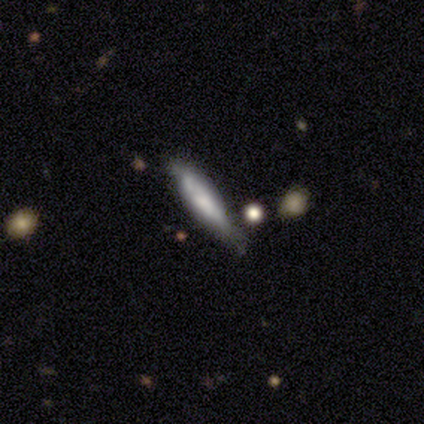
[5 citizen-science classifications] Overall: smooth (60%; featured or disk 40%). How rounded: cigar-shaped (100%). Merging: none (80%).